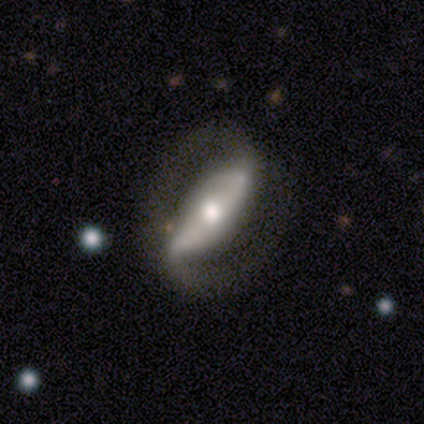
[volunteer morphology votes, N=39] Smooth or featured?
  - featured or disk: 90% *
  - smooth: 10%
  - star or artifact: 0%
Edge-on disk?
  - no: 80% *
  - yes: 20%
Bar?
  - strong: 68% *
  - weak: 18%
  - no: 14%
Spiral arms?
  - yes: 93% *
  - no: 7%
Spiral winding?
  - medium: 50% *
  - tight: 31%
  - loose: 19%
Spiral arm count?
  - 2: 96% *
  - 1: 4%
  - 3: 0%
  - 4: 0%
  - more than 4: 0%
  - can't tell: 0%
Bulge size?
  - moderate: 54% *
  - large: 25%
  - small: 18%
  - dominant: 4%
  - none: 0%
Merging?
  - none: 67% *
  - major disturbance: 18%
  - minor disturbance: 13%
  - merger: 3%